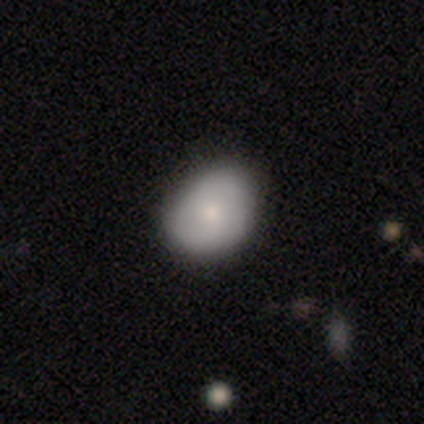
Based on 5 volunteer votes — A featured or disk galaxy (60%) with no bar (67%), 2 (100%) medium (100%) spiral arms (67%) and a small central bulge (67%). Merging: none (40%, tied with minor disturbance).